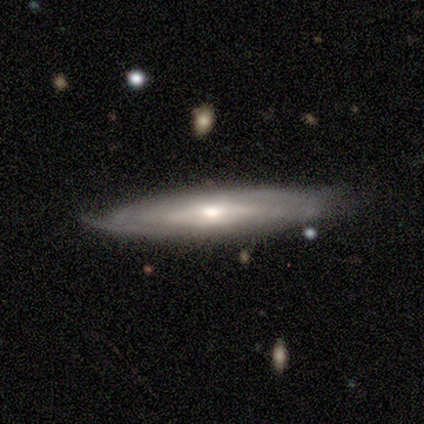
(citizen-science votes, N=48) featured or disk 83%, smooth 15%, star or artifact 2%. Down the decision tree: edge-on disk — no (55%); bar — no (55%); spiral arms — yes (73%); spiral arm count — can't tell (69%); spiral winding — tight (56%); bulge size — moderate (73%); merging — none (79%).